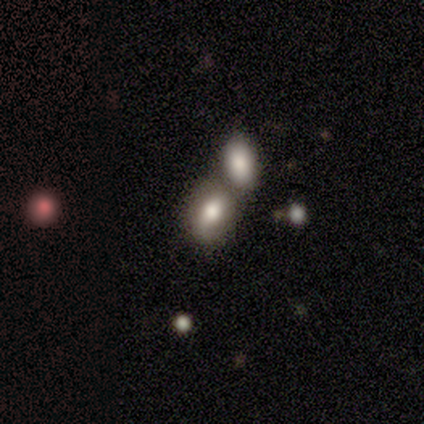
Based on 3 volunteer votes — Smooth or featured?
  - smooth: 100% *
  - featured or disk: 0%
  - star or artifact: 0%
How rounded?
  - in between: 100% *
  - round: 0%
  - cigar-shaped: 0%
Merging?
  - merger: 67% *
  - none: 33%
  - minor disturbance: 0%
  - major disturbance: 0%